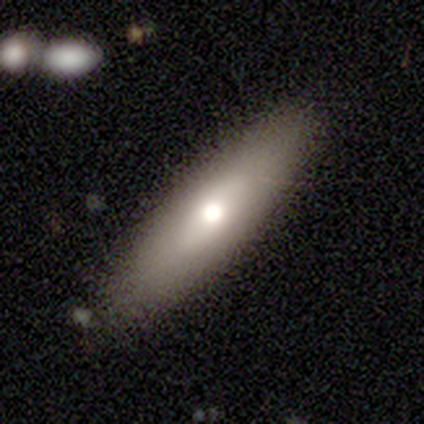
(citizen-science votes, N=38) Smooth or featured? 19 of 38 (50%) said smooth. How rounded? 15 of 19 (79%) said cigar-shaped. Merging? 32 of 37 (86%) said none.